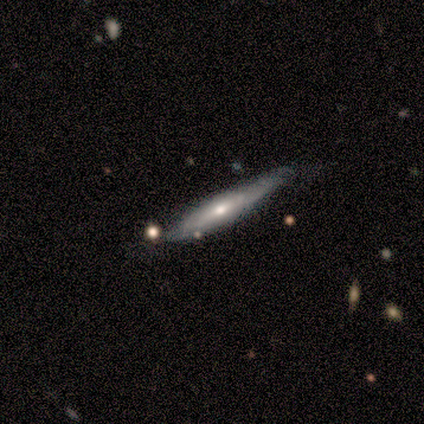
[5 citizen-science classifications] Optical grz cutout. It shows a featured or disk galaxy (60%) viewed edge-on (100%) with no central bulge (67%). Merging: none (80%).